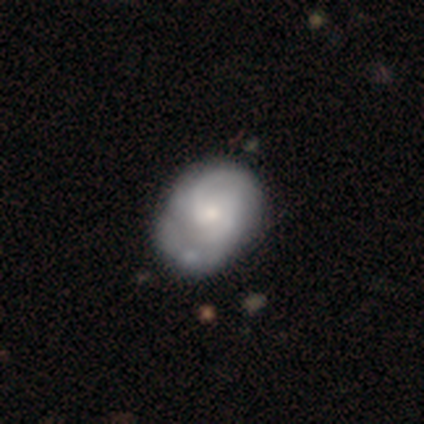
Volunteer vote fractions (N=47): This is likely a featured or disk galaxy (68%). It is clearly not viewed edge-on (94%). Bar: clearly no (80%). Spiral arm pattern: clearly yes (93%). Spiral arm count: likely 2 (71%). Spiral winding: marginally medium (43%). Central bulge: possibly moderate (57%). Merging: possibly none (48%).